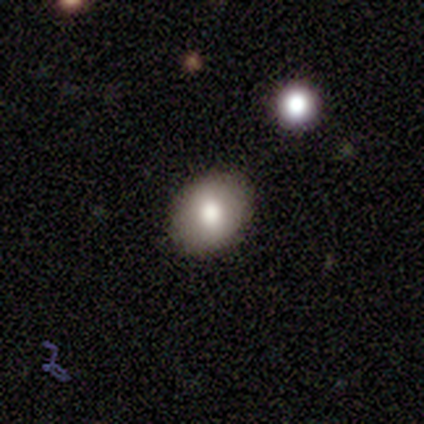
Smooth or featured?
  - smooth: 67% *
  - featured or disk: 33%
  - star or artifact: 0%
How rounded?
  - round: 50% * (tied)
  - in between: 50% * (tied)
  - cigar-shaped: 0%
Merging?
  - none: 83% *
  - minor disturbance: 17%
  - major disturbance: 0%
  - merger: 0%